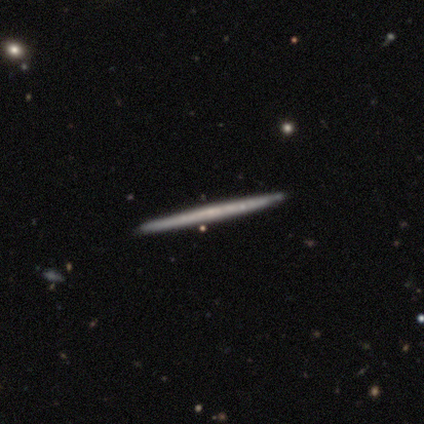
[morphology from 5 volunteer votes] Q: Smooth or featured?
A: featured or disk (60%); runner-up: smooth (40%)
Q: Edge-on disk?
A: yes (100%)
Q: Edge-on bulge?
A: none (100%)
Q: Merging?
A: none (100%)